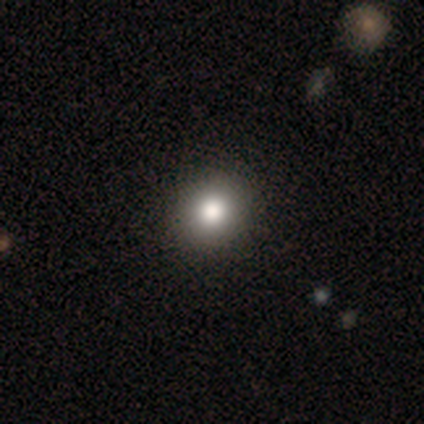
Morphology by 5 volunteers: Overall: smooth (100%). How rounded: in between (60%; round 40%). Merging: none (100%).